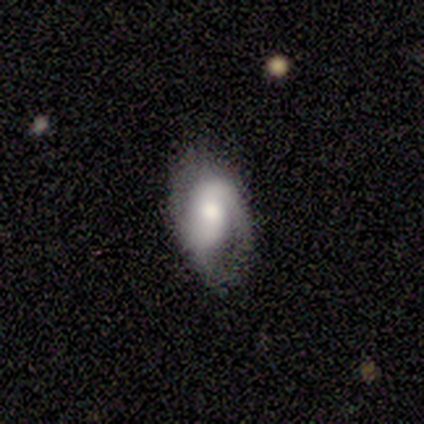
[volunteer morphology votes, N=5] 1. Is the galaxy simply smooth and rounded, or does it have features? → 60% smooth, 40% featured or disk, 0% star or artifact.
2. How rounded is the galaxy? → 100% in between, 0% round, 0% cigar-shaped.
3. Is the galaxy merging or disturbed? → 60% minor disturbance, 40% none, 0% major disturbance, 0% merger.